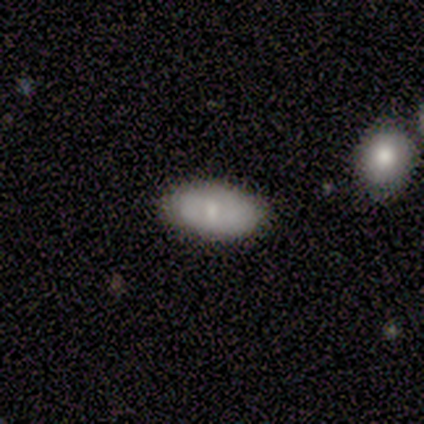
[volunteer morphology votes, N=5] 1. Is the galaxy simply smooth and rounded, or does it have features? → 60% smooth, 20% featured or disk, 20% star or artifact.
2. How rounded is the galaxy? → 100% in between, 0% round, 0% cigar-shaped.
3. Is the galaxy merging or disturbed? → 50% none, 25% minor disturbance, 25% merger, 0% major disturbance.